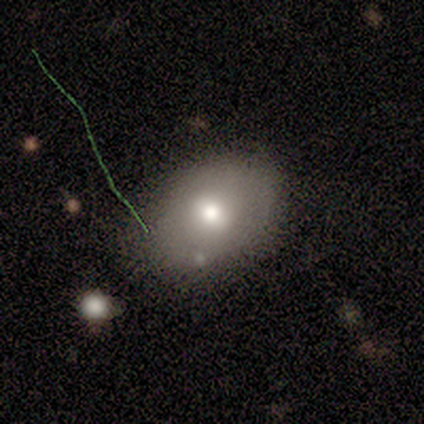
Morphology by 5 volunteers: Smooth or featured?
  - smooth: 80% *
  - featured or disk: 20%
  - star or artifact: 0%
How rounded?
  - in between: 100% *
  - round: 0%
  - cigar-shaped: 0%
Merging?
  - none: 100% *
  - minor disturbance: 0%
  - major disturbance: 0%
  - merger: 0%